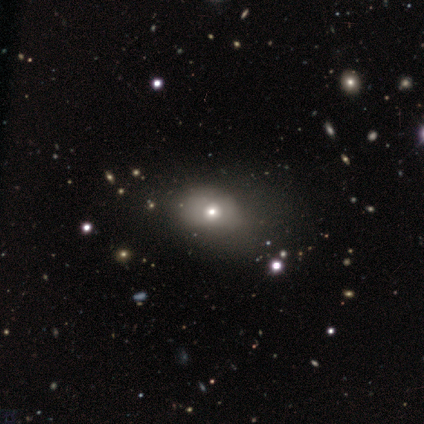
Morphology: type=smooth (67%); roundness=in between (100%); merging=none (33%, tied with minor disturbance and major disturbance).